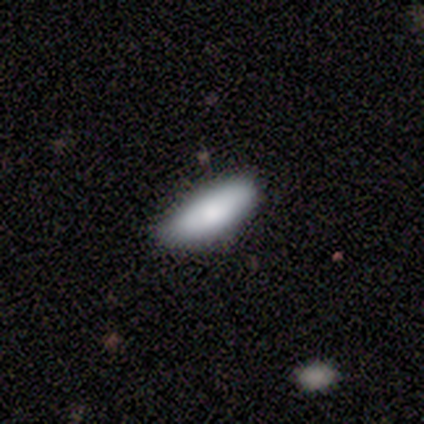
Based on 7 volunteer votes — Q: Smooth or featured?
A: smooth (100%)
Q: How rounded?
A: in between (71%); runner-up: cigar-shaped (29%)
Q: Merging?
A: none (71%); runner-up: minor disturbance (29%)